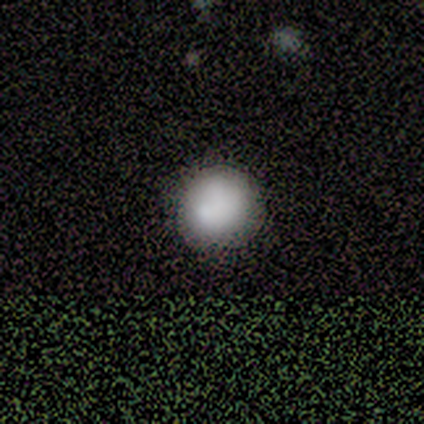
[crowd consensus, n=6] Volunteers were most divided on "merging": minor disturbance: 50%, none: 33%, major disturbance: 17%, merger: 0%. More confident: how rounded — round (100%); smooth or featured — smooth (83%).